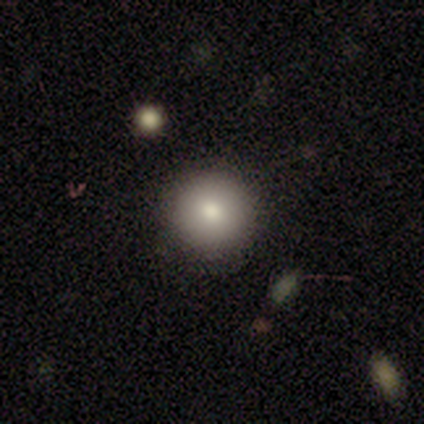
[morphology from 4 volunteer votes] Overall: smooth (100%). How rounded: round (100%). Merging: none (100%).